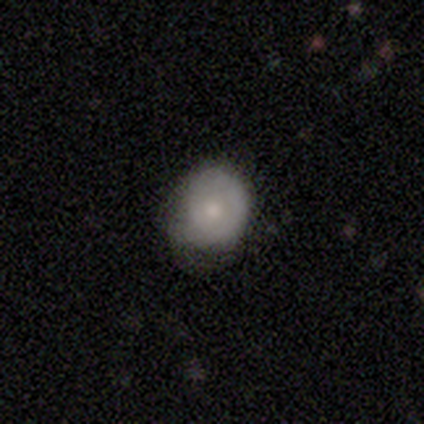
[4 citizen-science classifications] Smooth or featured?
  - smooth: 50% * (tied)
  - featured or disk: 50% * (tied)
  - star or artifact: 0%
How rounded?
  - round: 100% *
  - in between: 0%
  - cigar-shaped: 0%
Merging?
  - none: 50% * (tied)
  - minor disturbance: 50% * (tied)
  - major disturbance: 0%
  - merger: 0%